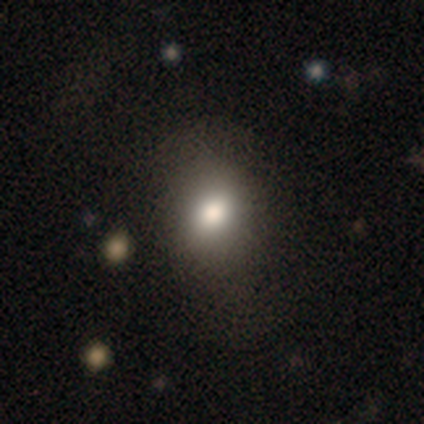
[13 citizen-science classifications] Smooth or featured? 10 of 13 (77%) said smooth. How rounded? 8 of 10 (80%) said round. Merging? 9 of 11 (82%) said none.